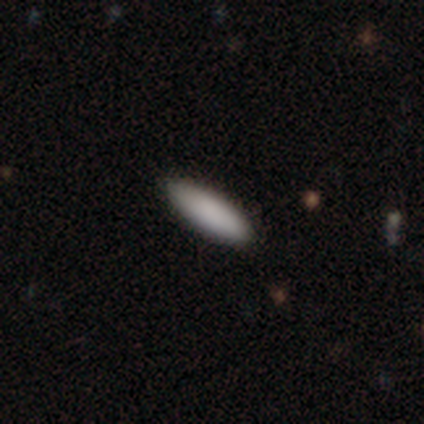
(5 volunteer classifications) Overall: smooth (100%). How rounded: cigar-shaped (60%; in between 40%). Merging: none (100%).